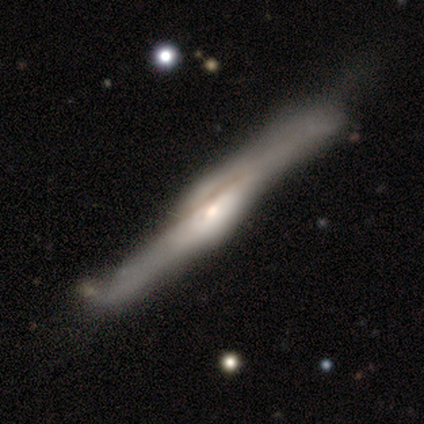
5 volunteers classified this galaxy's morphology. smooth-or-featured: featured or disk: 100% | smooth: 0% | star or artifact: 0%
  disk-edge-on: yes: 100% | no: 0%
    edge-on-bulge: rounded: 100% | boxy: 0% | none: 0%
  merging: none: 100% | minor disturbance: 0% | major disturbance: 0% | merger: 0%